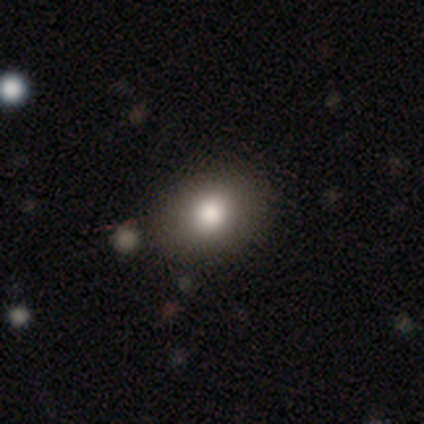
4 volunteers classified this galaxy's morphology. smooth-or-featured: smooth: 50% (tied) | star or artifact: 50% (tied) | featured or disk: 0%
  how-rounded: round: 50% (tied) | in between: 50% (tied) | cigar-shaped: 0%
  merging: none: 100% | minor disturbance: 0% | major disturbance: 0% | merger: 0%